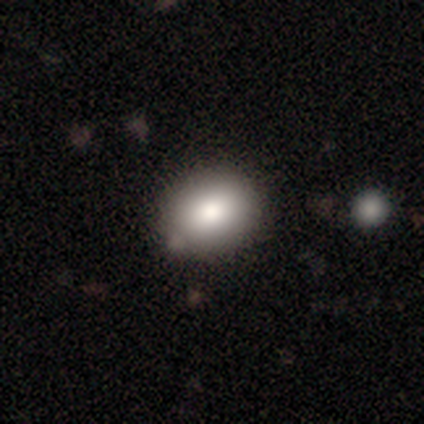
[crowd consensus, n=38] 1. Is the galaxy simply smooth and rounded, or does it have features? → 89% smooth, 5% featured or disk, 5% star or artifact.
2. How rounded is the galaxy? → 56% round, 44% in between, 0% cigar-shaped.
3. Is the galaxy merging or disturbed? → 56% none, 8% minor disturbance, 6% merger, 0% major disturbance.